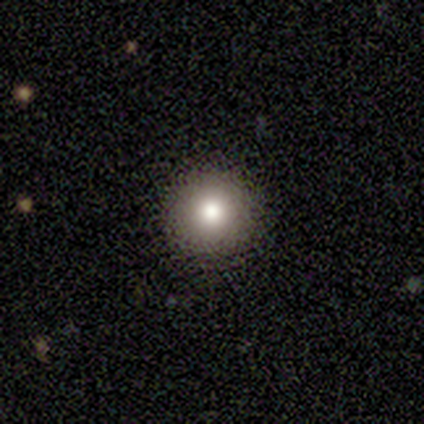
This is likely a smooth galaxy (75%). How rounded: clearly round (100%). Merging: clearly none (100%).